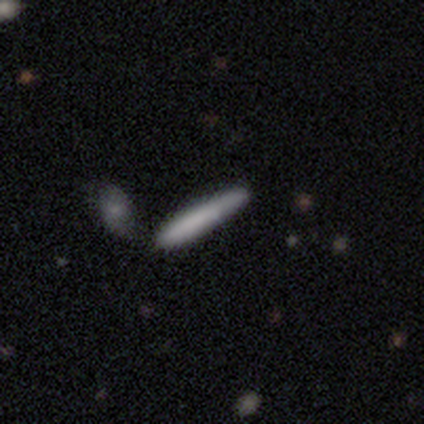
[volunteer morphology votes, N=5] This is marginally a smooth galaxy (40%, tied with featured or disk). How rounded: clearly cigar-shaped (100%). Merging: likely none (75%).